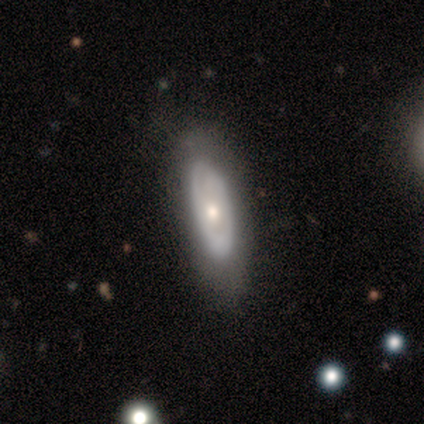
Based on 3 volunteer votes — smooth_or_featured: smooth (p=0.67) [alt: featured or disk p=0.33]
how_rounded: in between (p=1.00)
merging: none (p=1.00)